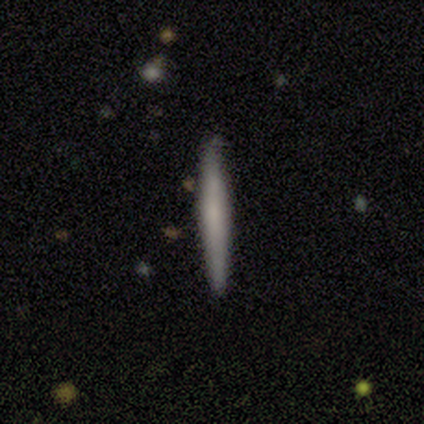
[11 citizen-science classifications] This is possibly a smooth galaxy (55%). How rounded: clearly cigar-shaped (100%). Merging: clearly none (100%).